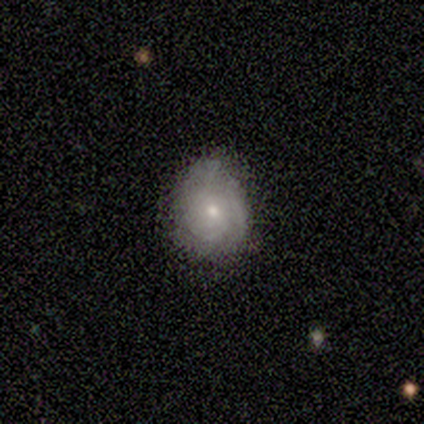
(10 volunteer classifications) A featured or disk galaxy (60%) with no bar (60%), 3 (67%) tight (67%) spiral arms (60%) and a small central bulge (60%). Merging: none (62%).